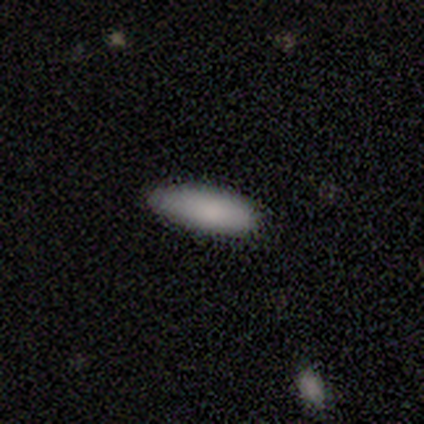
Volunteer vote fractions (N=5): This appears to be a smooth galaxy with no disk features (100%) that is cigar-shaped (60%). Merging: minor disturbance (60%).